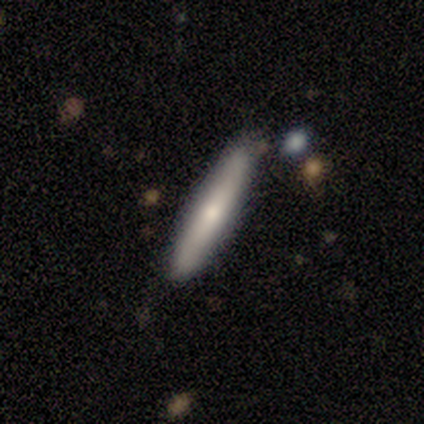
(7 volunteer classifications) smooth-or-featured: smooth: 57% | featured or disk: 43% | star or artifact: 0%
  how-rounded: cigar-shaped: 75% | in between: 25% | round: 0%
  merging: none: 86% | minor disturbance: 14% | major disturbance: 0% | merger: 0%